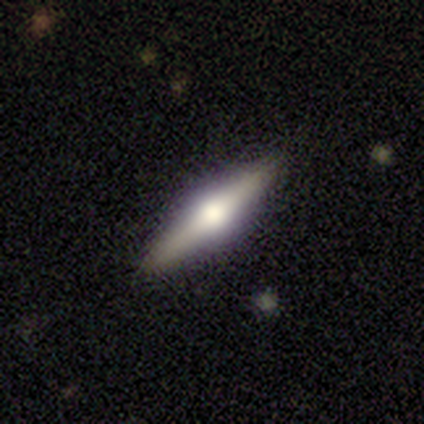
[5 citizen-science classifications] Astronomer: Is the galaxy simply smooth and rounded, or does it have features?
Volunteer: featured or disk — 80%.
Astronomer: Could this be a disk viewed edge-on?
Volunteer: yes — 100%.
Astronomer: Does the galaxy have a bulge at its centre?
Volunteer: rounded — 75%.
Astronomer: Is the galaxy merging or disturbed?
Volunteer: none — 100%.